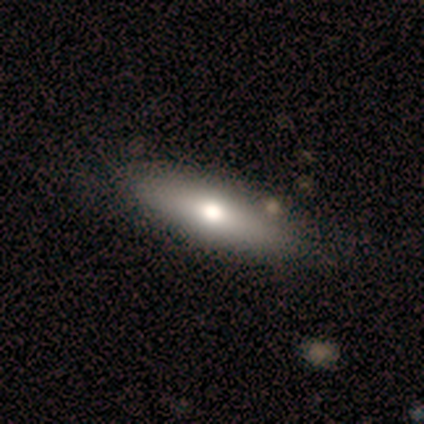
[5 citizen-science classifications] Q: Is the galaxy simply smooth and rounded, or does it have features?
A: smooth — 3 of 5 (60%).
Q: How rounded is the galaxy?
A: in between — 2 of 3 (67%).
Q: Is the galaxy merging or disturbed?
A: none — 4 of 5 (80%).